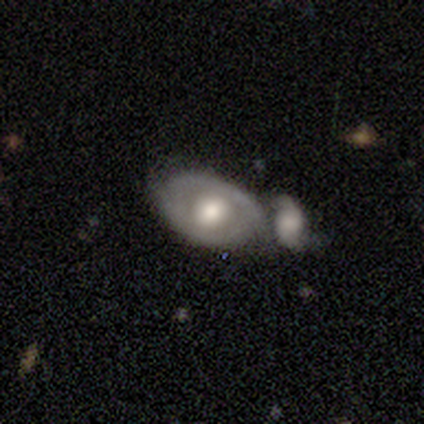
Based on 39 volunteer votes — This is likely a featured or disk galaxy (72%). It is clearly not viewed edge-on (86%). Bar: clearly no (83%). Spiral arm pattern: likely no (62%). Central bulge: marginally moderate (42%). Merging: possibly merger (50%).